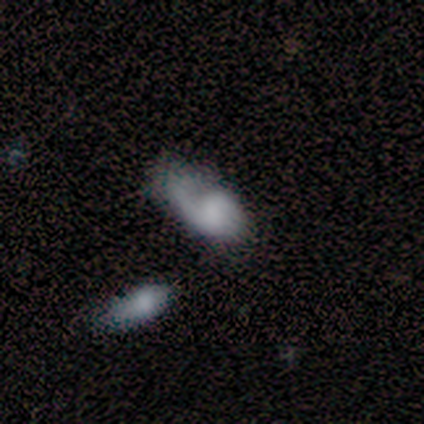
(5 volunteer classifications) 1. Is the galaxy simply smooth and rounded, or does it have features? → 60% smooth, 40% featured or disk, 0% star or artifact.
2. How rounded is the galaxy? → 100% in between, 0% round, 0% cigar-shaped.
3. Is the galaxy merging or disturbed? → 60% major disturbance, 20% none, 20% minor disturbance, 0% merger.